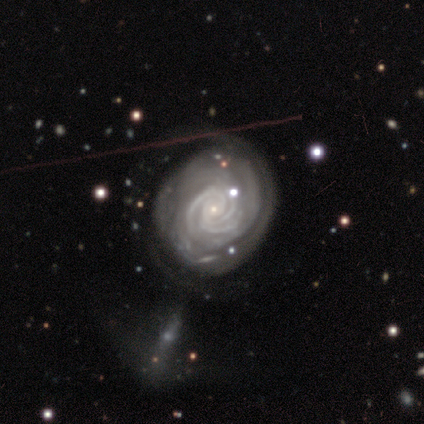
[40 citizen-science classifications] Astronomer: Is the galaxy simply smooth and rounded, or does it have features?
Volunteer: featured or disk — 92%.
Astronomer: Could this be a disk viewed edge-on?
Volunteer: no — 97%.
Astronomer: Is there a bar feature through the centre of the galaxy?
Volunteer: no — 67%.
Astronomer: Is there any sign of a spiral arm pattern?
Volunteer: yes — 97%.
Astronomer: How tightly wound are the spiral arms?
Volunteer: tight — 83%.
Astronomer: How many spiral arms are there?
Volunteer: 3 — 46% (runner-up: can't tell, 26%).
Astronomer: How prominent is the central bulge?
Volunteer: small — 89%.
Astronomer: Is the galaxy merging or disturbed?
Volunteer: none — 54%.